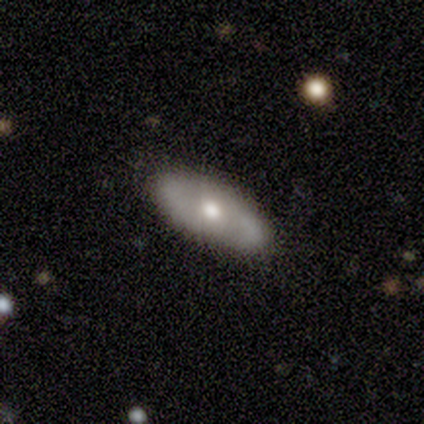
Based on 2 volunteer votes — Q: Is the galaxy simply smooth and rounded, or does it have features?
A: featured or disk — 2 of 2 (100%).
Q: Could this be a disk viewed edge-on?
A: no — 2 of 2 (100%).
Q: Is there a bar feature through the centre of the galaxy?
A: no — 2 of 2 (100%).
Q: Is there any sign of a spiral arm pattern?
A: yes — 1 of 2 (50%, tied with no).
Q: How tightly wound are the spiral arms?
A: medium — 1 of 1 (100%).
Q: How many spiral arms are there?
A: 2 — 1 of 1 (100%).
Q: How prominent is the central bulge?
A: moderate — 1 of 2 (50%, tied with small).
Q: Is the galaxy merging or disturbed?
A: none — 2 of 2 (100%).